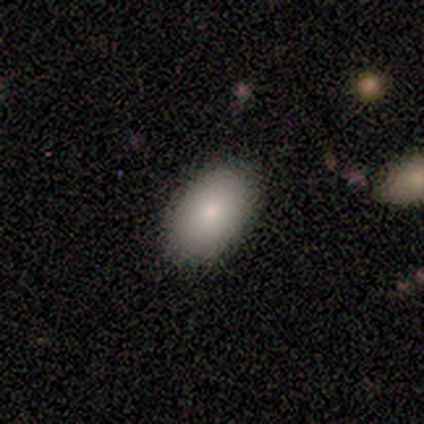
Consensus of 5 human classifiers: Smooth or featured: smooth — 80% (star or artifact — 20%)
How rounded: in between — 100%
Merging: none — 50% (tied with minor disturbance — 50%)